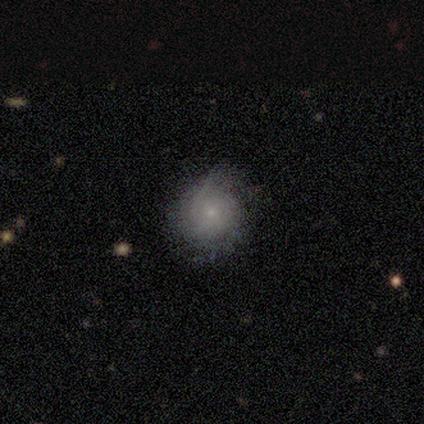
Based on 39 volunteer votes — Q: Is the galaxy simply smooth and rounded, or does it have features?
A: smooth — 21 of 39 (54%).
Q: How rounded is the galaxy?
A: round — 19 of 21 (90%).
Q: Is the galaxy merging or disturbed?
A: none — 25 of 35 (71%).